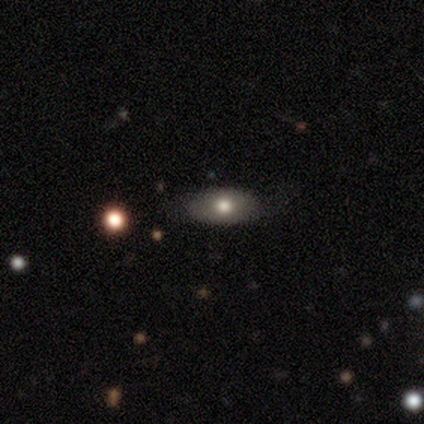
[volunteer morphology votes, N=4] A smooth galaxy with no disk features (75%) that is in between round and cigar-shaped (67%). Merging: none (100%).